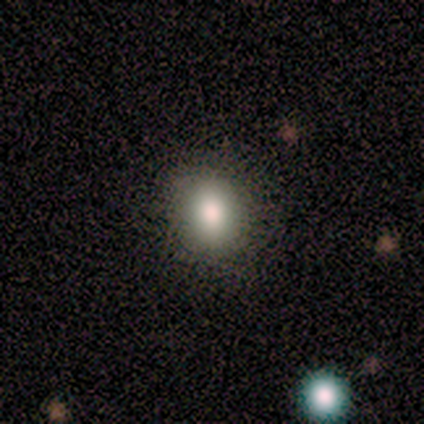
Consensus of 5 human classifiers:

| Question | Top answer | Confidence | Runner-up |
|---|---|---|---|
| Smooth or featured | smooth | 100% | — |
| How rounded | round | 60% | in between (40%) |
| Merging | none | 100% | — |